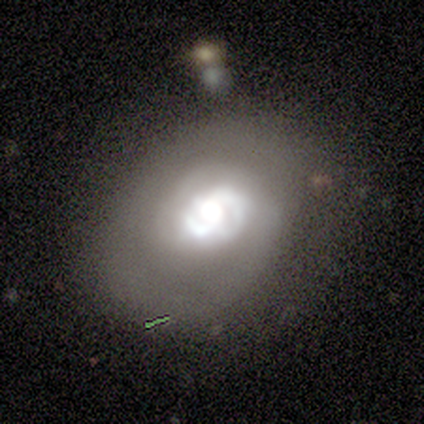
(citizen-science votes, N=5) Smooth or featured: smooth — 60% (featured or disk — 20%)
How rounded: round — 67% (in between — 33%)
Merging: none — 50% (tied with major disturbance — 50%)